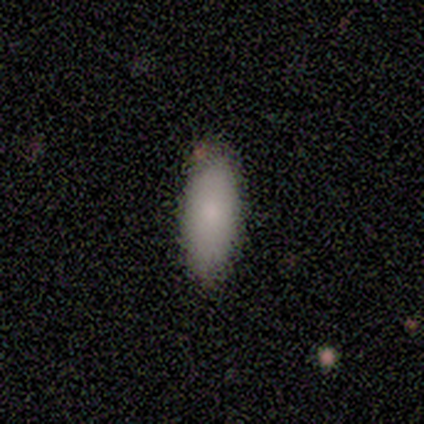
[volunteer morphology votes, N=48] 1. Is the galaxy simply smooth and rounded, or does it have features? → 88% smooth, 10% featured or disk, 2% star or artifact.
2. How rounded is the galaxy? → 88% in between, 10% cigar-shaped, 2% round.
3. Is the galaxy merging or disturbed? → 94% none, 4% minor disturbance, 2% merger, 0% major disturbance.